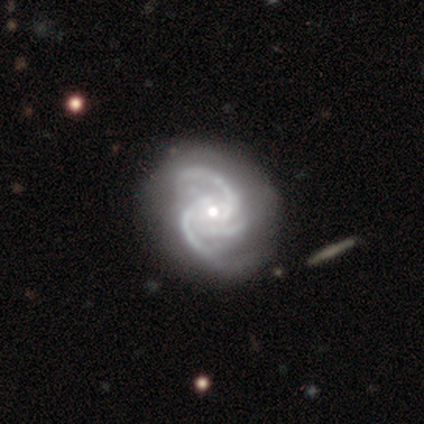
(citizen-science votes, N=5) Smooth or featured: featured or disk — 80% (smooth — 20%)
Edge-on disk: no — 100%
Bar: no — 100%
Spiral arms: yes — 100%
Spiral winding: medium — 50% (tight — 25%)
Spiral arm count: 3 — 100%
Bulge size: moderate — 50% (tied with small — 50%)
Merging: minor disturbance — 60% (none — 40%)